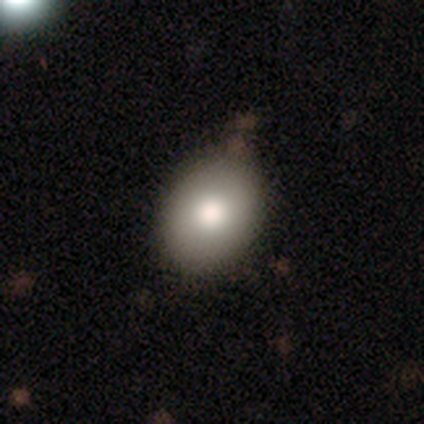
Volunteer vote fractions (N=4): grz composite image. It shows a smooth galaxy with no disk features (75%) that is in between round and cigar-shaped (100%). Merging: none (100%).